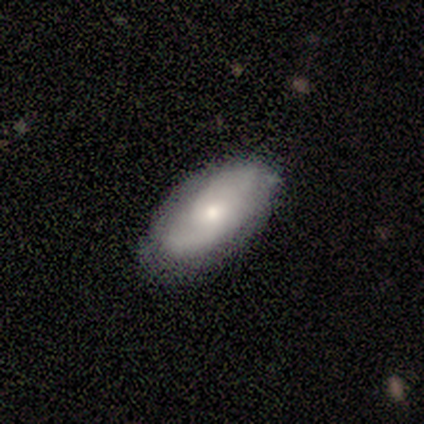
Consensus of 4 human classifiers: Morphology: type=featured or disk (50%); edge-on=no (100%); bar=weak (100%); spiral arms=yes (100%); winding=medium (100%); arm count=2 (100%); bulge=moderate (50%, tied with small); merging=none (67%).